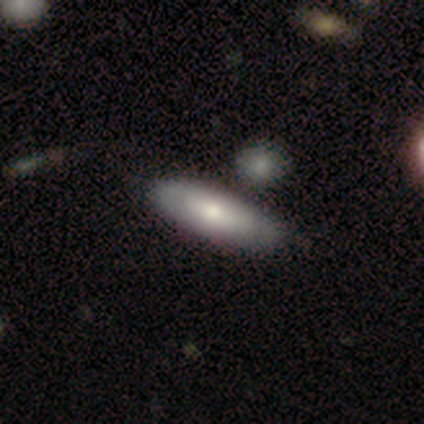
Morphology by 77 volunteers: Smooth or featured? smooth (60%)
How rounded? in between (67%)
Merging? none (50%)